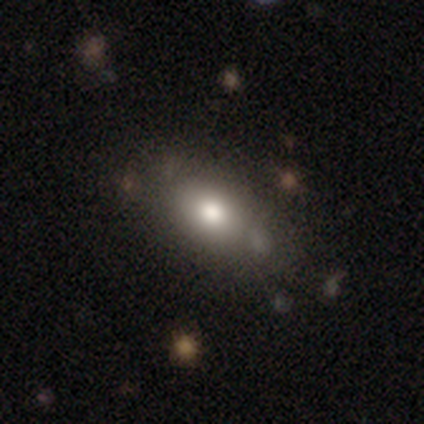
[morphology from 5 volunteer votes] Q: Smooth or featured?
A: smooth (100%)
Q: How rounded?
A: in between (80%); runner-up: cigar-shaped (20%)
Q: Merging?
A: none (60%); runner-up: minor disturbance (40%)